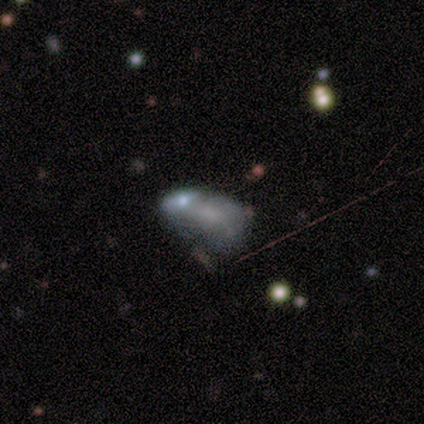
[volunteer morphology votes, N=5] Smooth or featured?
  - smooth: 60% *
  - featured or disk: 40%
  - star or artifact: 0%
How rounded?
  - in between: 67% *
  - round: 33%
  - cigar-shaped: 0%
Merging?
  - major disturbance: 40% * (tied)
  - merger: 40% * (tied)
  - minor disturbance: 20%
  - none: 0%